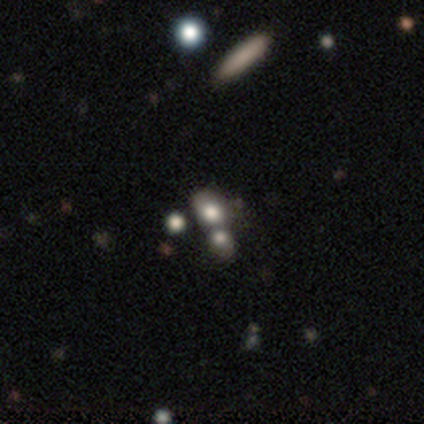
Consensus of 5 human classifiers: Smooth or featured: featured or disk — 40% (tied with star or artifact — 40%)
Edge-on disk: no — 100%
Bar: no — 100%
Spiral arms: no — 100%
Bulge size: dominant — 50% (tied with large — 50%)
Merging: none — 100%